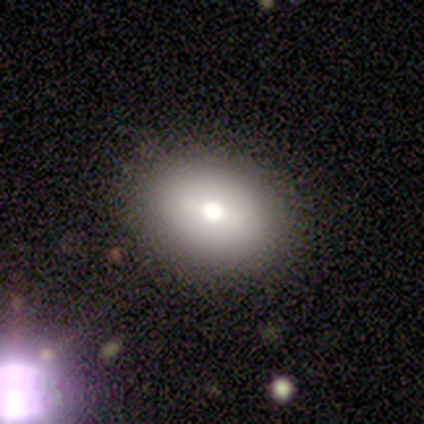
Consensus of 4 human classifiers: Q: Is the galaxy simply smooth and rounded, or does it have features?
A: smooth — 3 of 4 (75%).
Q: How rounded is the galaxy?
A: in between — 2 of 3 (67%).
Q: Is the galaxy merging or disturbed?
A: none — 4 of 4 (100%).